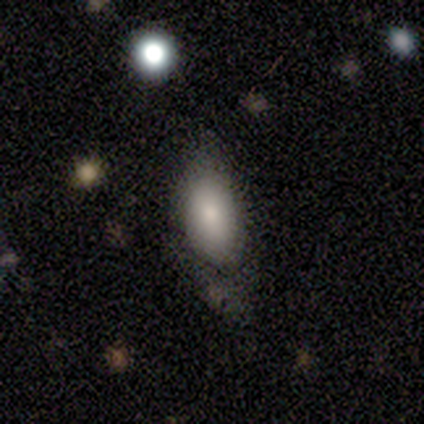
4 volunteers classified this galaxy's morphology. Q: Smooth or featured?
A: smooth (100%)
Q: How rounded?
A: in between (100%)
Q: Merging?
A: minor disturbance (50%); runner-up: none (25%)